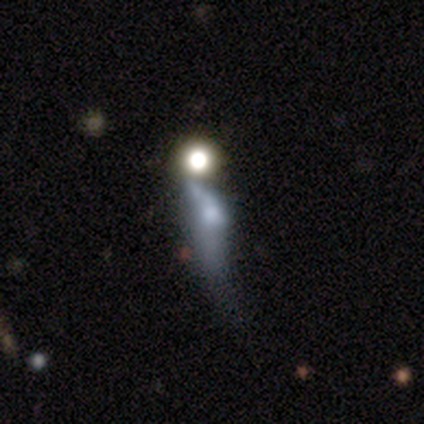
This appears to be a featured or disk galaxy (80%) with no bar (100%), no spiral arms (100%) and a moderate central bulge (75%). Merging: major disturbance (60%).